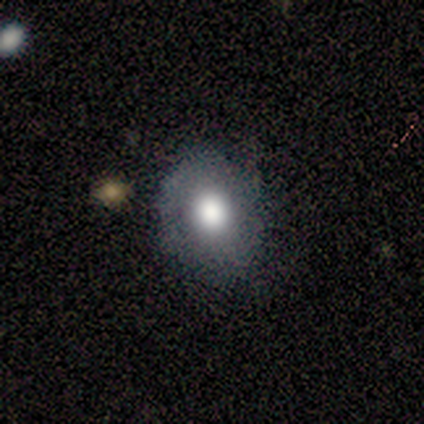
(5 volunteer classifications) Overall: smooth (60%; featured or disk 20%). How rounded: round (67%; in between 33%). Merging: none (75%).